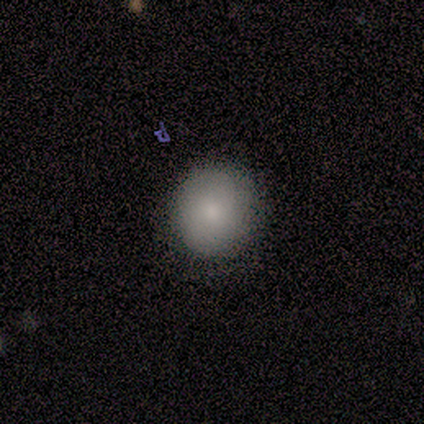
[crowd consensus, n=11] Smooth or featured?
  - smooth: 91% *
  - featured or disk: 9%
  - star or artifact: 0%
How rounded?
  - round: 90% *
  - in between: 10%
  - cigar-shaped: 0%
Merging?
  - none: 82% *
  - minor disturbance: 18%
  - major disturbance: 0%
  - merger: 0%